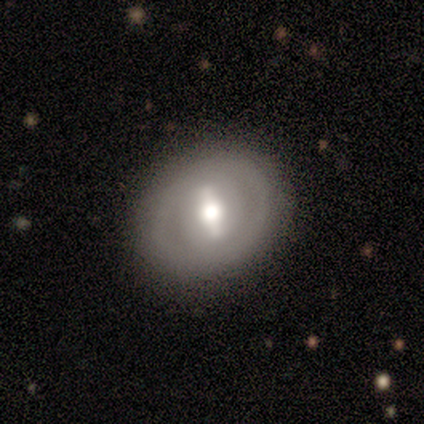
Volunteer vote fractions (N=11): A featured or disk galaxy (55%) with a strong bar (80%), no spiral arms (80%) and a moderate central bulge (80%). Merging: none (80%).